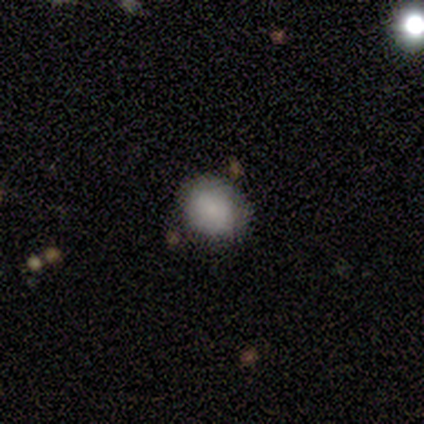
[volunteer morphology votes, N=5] Smooth or featured?
  - smooth: 60% *
  - star or artifact: 40%
  - featured or disk: 0%
How rounded?
  - in between: 67% *
  - round: 33%
  - cigar-shaped: 0%
Merging?
  - none: 100% *
  - minor disturbance: 0%
  - major disturbance: 0%
  - merger: 0%